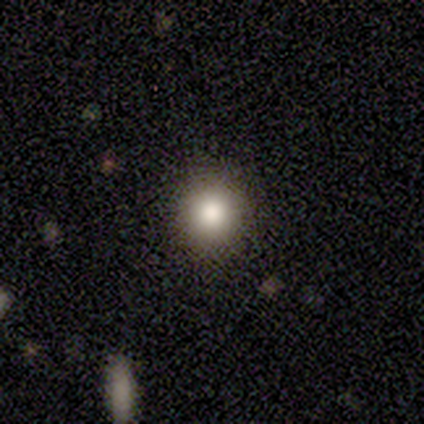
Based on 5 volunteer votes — A smooth galaxy with no disk features (80%) that is round (100%).

Vote fractions:
- Smooth or featured? smooth: 80% / star or artifact: 20% / featured or disk: 0%
- How rounded? round: 100% / in between: 0% / cigar-shaped: 0%
- Merging? none: 100% / minor disturbance: 0% / major disturbance: 0% / merger: 0%